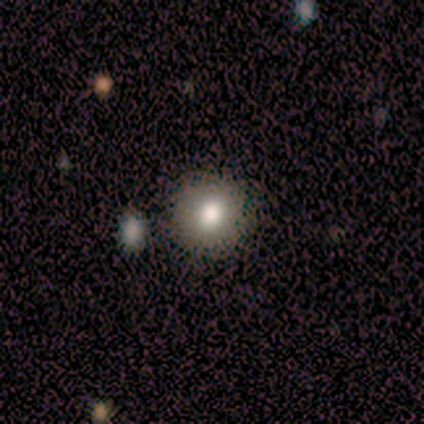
A smooth galaxy with no disk features (50%, tied with featured or disk) that is round (100%). Merging: none (50%, tied with minor disturbance).